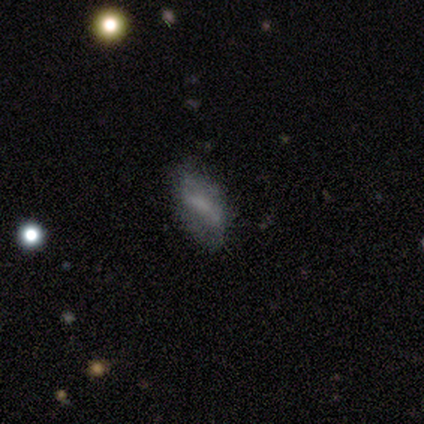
featured or disk 60%, smooth 40%, star or artifact 0%. Down the decision tree: edge-on disk — no (100%); bar — strong (67%); spiral arms — no (67%); bulge size — moderate (33%, tied with small and none); merging — none (60%).